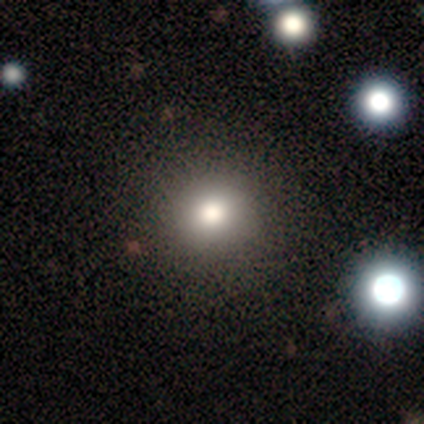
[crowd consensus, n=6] Smooth or featured? 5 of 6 (83%) said smooth. How rounded? 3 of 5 (60%) said round. Merging? 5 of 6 (83%) said none.